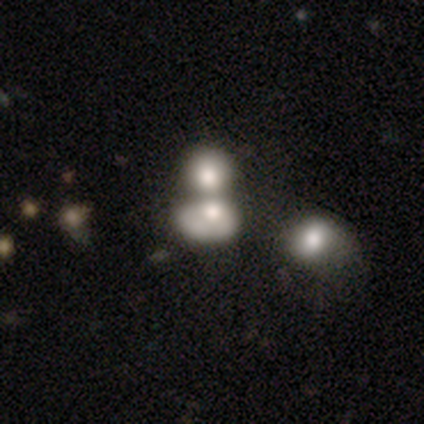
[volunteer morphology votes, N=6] Smooth or featured: smooth — 83% (star or artifact — 17%)
How rounded: round — 80% (in between — 20%)
Merging: merger — 80% (major disturbance — 20%)